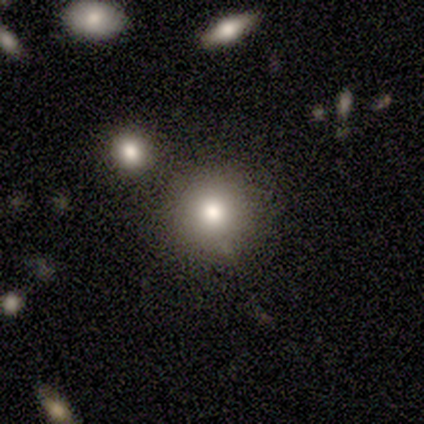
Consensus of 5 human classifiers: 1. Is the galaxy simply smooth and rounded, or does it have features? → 80% smooth, 20% star or artifact, 0% featured or disk.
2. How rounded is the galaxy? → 100% round, 0% in between, 0% cigar-shaped.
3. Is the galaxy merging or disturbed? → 100% none, 0% minor disturbance, 0% major disturbance, 0% merger.